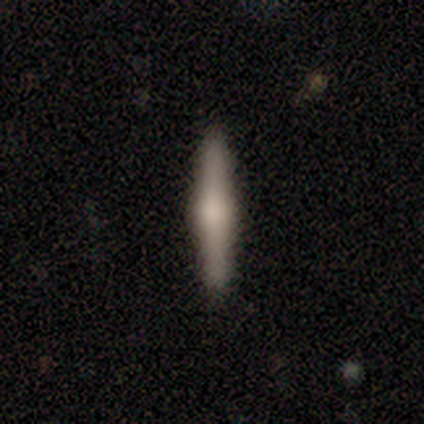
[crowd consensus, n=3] This appears to be a featured or disk galaxy (100%) viewed edge-on (100%) with a rounded central bulge (100%). Merging: none (100%).